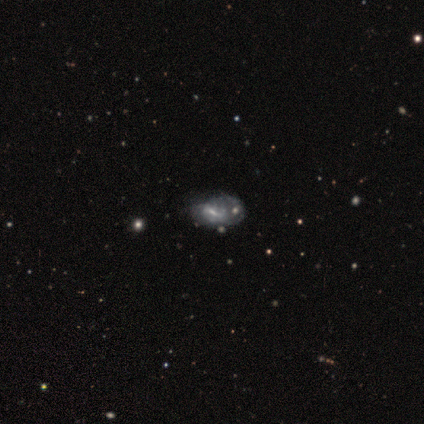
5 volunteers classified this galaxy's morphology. type=featured or disk (100%); edge-on=no (100%); bar=weak (80%); spiral arms=no (80%); bulge=none (60%); merging=merger (60%).